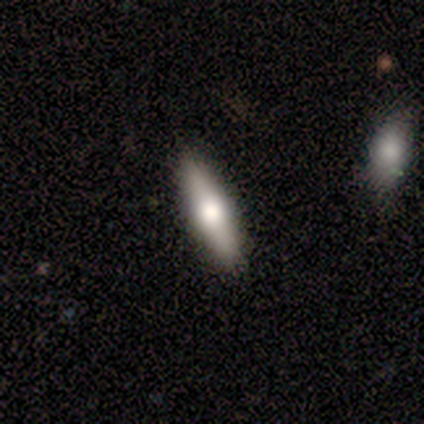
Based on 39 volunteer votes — Smooth or featured: smooth — 51% (featured or disk — 46%)
How rounded: cigar-shaped — 75% (in between — 25%)
Merging: none — 95% (minor disturbance — 3%)